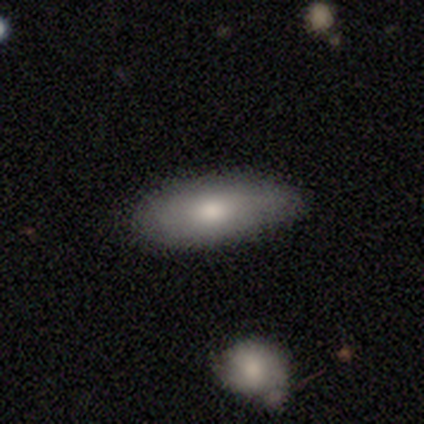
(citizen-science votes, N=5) A smooth galaxy with no disk features (80%) that is in between round and cigar-shaped (100%).

Vote fractions:
- Smooth or featured? smooth: 80% / featured or disk: 20% / star or artifact: 0%
- How rounded? in between: 100% / round: 0% / cigar-shaped: 0%
- Merging? none: 80% / minor disturbance: 20% / major disturbance: 0% / merger: 0%